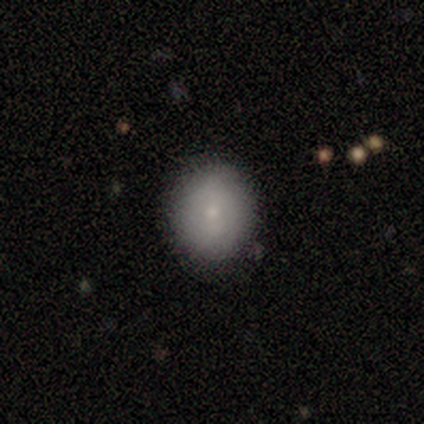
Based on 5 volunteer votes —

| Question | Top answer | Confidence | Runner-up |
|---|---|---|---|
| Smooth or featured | smooth | 100% | — |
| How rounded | in between | 60% | round (40%) |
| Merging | none | 80% | minor disturbance (20%) |